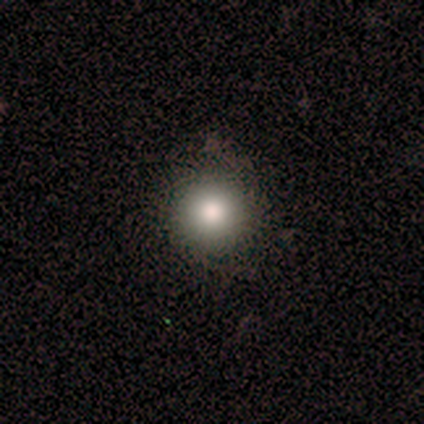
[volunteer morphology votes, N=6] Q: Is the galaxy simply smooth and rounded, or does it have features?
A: smooth — 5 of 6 (83%).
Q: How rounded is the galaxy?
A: round — 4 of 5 (80%).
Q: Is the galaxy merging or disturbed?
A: none — 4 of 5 (80%).